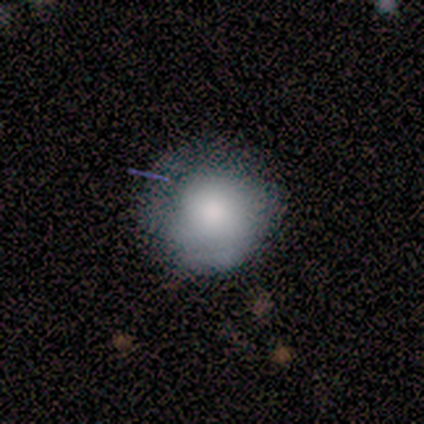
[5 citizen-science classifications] A smooth galaxy with no disk features (100%) that is round (80%).

Vote fractions:
- Smooth or featured? smooth: 100% / featured or disk: 0% / star or artifact: 0%
- How rounded? round: 80% / in between: 20% / cigar-shaped: 0%
- Merging? minor disturbance: 60% / none: 20% / major disturbance: 20% / merger: 0%